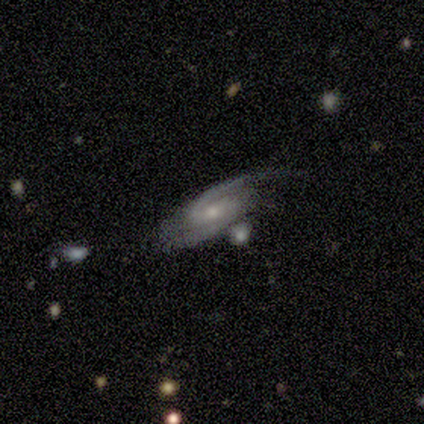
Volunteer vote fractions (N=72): Overall: featured or disk (93%). Edge-on disk: no (94%). Bar: weak (52%; no 30%). Spiral arms: yes (97%). Spiral arm count: 2 (92%). Spiral winding: medium (54%; tight 33%). Bulge size: small (52%; moderate 40%). Merging: none (52%; minor disturbance 18%).